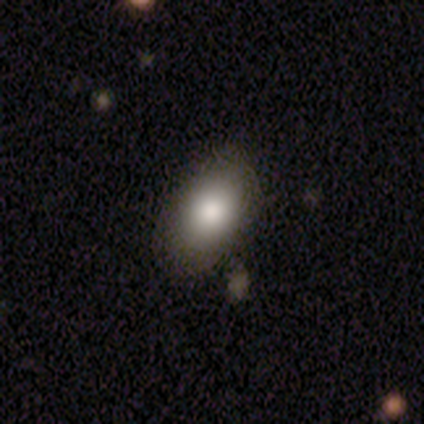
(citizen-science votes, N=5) Q: Smooth or featured?
A: smooth (100%)
Q: How rounded?
A: in between (100%)
Q: Merging?
A: none (100%)